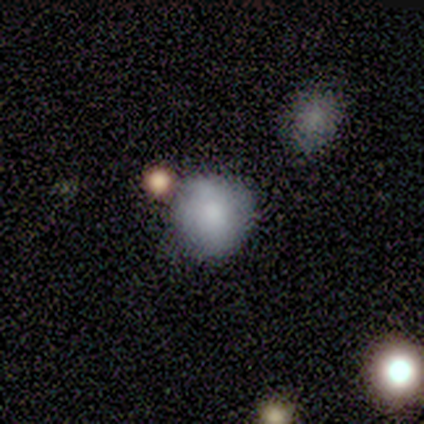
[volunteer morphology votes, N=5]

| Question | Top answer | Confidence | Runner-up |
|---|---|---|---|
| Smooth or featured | smooth | 100% | — |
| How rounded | round | 100% | — |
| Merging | none | 80% | merger (20%) |